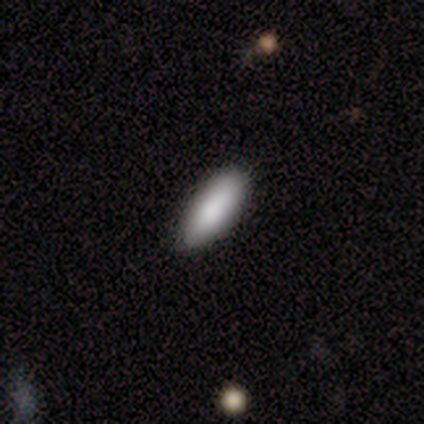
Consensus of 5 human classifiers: Smooth or featured? 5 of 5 (100%) said smooth. How rounded? 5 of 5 (100%) said in between. Merging? 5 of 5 (100%) said none.